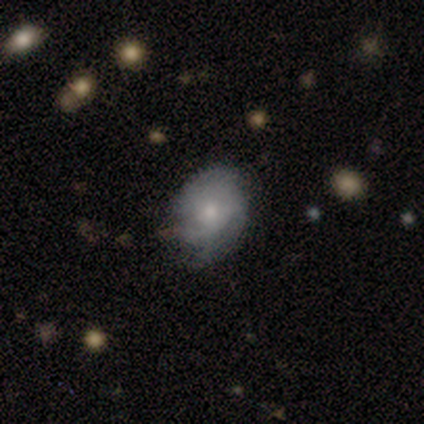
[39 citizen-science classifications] Q: Smooth or featured?
A: featured or disk (49%); runner-up: smooth (46%)
Q: Edge-on disk?
A: no (100%)
Q: Bar?
A: no (79%); runner-up: weak (21%)
Q: Spiral arms?
A: yes (74%); runner-up: no (26%)
Q: Spiral winding?
A: tight (64%); runner-up: medium (29%)
Q: Spiral arm count?
A: can't tell (43%); runner-up: 3 (29%)
Q: Bulge size?
A: small (58%); runner-up: moderate (21%)
Q: Merging?
A: none (54%); runner-up: minor disturbance (32%)